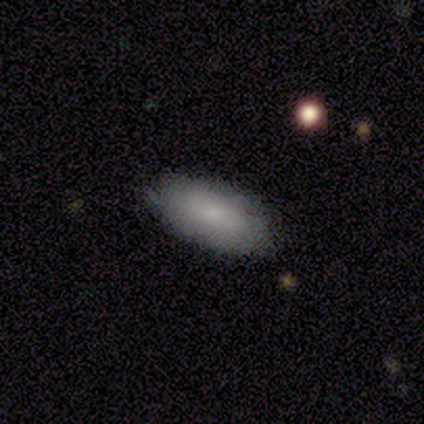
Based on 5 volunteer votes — A smooth galaxy with no disk features (80%) that is in between round and cigar-shaped (100%). Merging: none (100%).